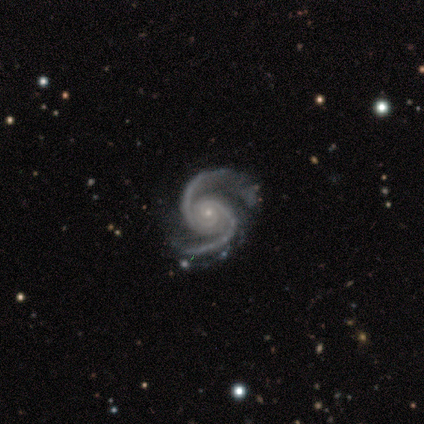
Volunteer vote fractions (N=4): featured or disk 100%, smooth 0%, star or artifact 0%. Down the decision tree: edge-on disk — no (100%); bar — no (50%); spiral arms — yes (100%); spiral arm count — 2 (75%); spiral winding — tight (50%, tied with medium); bulge size — small (100%); merging — none (75%).